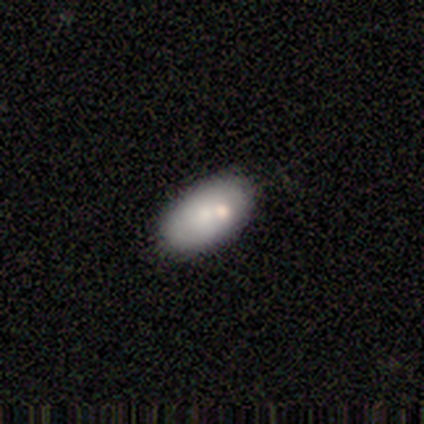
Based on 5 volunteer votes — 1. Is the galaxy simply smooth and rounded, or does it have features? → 60% smooth, 40% featured or disk, 0% star or artifact.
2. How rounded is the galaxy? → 67% in between, 33% cigar-shaped, 0% round.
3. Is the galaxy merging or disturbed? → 100% none, 0% minor disturbance, 0% major disturbance, 0% merger.